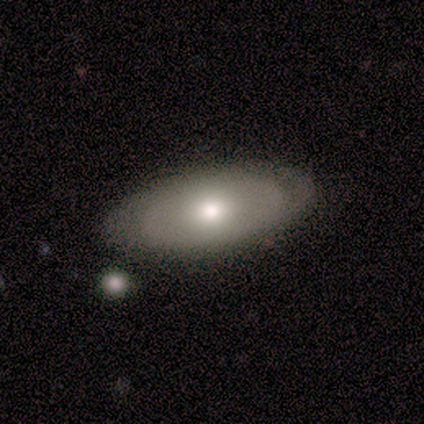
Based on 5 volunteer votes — Morphology: type=smooth (40%, tied with featured or disk); roundness=in between (100%); merging=none (100%).